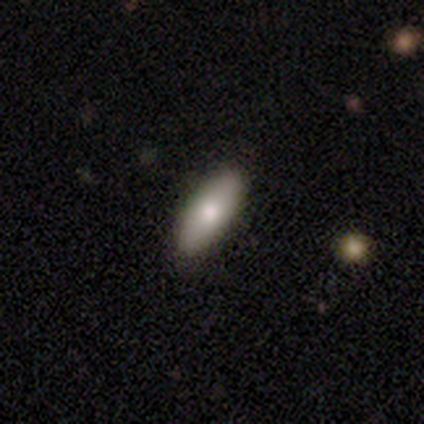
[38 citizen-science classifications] smooth 87%, featured or disk 13%, star or artifact 0%. Down the decision tree: how rounded — in between (61%); merging — none (84%).